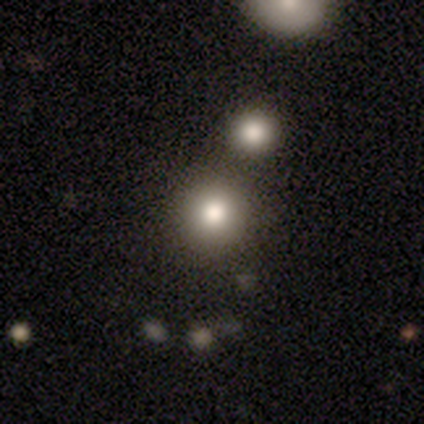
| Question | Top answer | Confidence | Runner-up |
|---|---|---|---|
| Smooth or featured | smooth | 80% | star or artifact (20%) |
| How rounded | round | 75% | in between (25%) |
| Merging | merger | 50% | none (25%) |